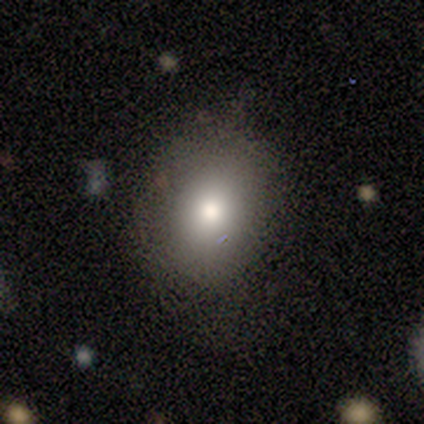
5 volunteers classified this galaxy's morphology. Smooth or featured? 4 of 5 (80%) said smooth. How rounded? 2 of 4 (50%) said in between. Merging? 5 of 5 (100%) said none.